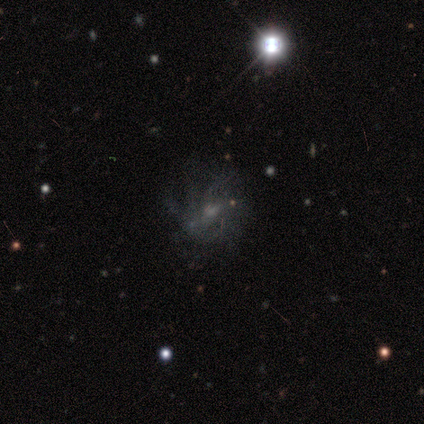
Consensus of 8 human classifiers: This is possibly a featured or disk galaxy (50%). It is clearly not viewed edge-on (100%). Bar: likely weak (75%). Spiral arm pattern: clearly yes (100%). Spiral arm count: likely can't tell (75%). Spiral winding: clearly tight (100%). Central bulge: likely small (75%). Merging: possibly none (50%).